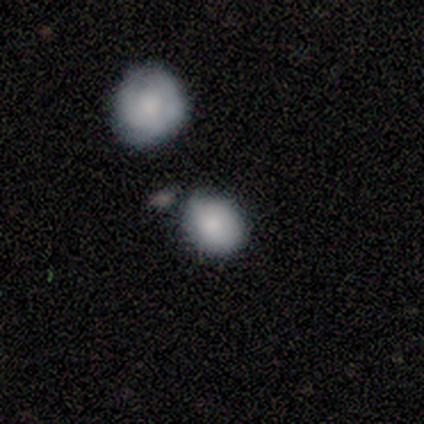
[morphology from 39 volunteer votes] smooth-or-featured: smooth: 85% | star or artifact: 10% | featured or disk: 5%
  how-rounded: round: 64% | in between: 30% | cigar-shaped: 6%
  merging: none: 46% | minor disturbance: 26% | merger: 20% | major disturbance: 9%